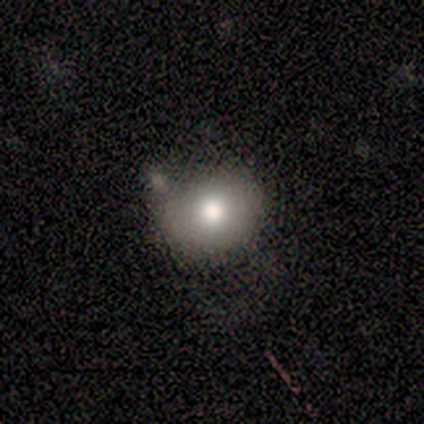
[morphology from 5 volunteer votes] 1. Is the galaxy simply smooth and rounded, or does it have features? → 60% smooth, 40% star or artifact, 0% featured or disk.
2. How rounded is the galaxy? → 67% round, 33% in between, 0% cigar-shaped.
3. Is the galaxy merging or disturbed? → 100% none, 0% minor disturbance, 0% major disturbance, 0% merger.